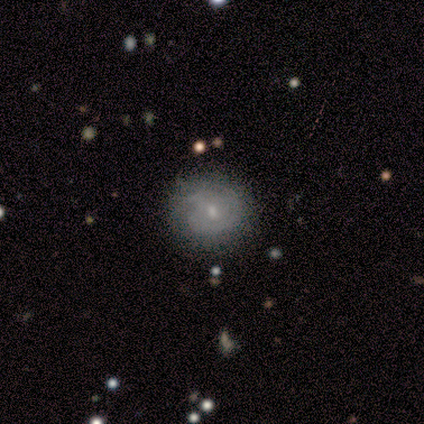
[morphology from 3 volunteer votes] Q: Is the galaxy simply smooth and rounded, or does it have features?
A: smooth — 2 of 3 (67%).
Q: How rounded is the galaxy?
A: round — 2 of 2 (100%).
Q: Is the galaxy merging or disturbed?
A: none — 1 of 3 (33%, tied with minor disturbance and major disturbance).